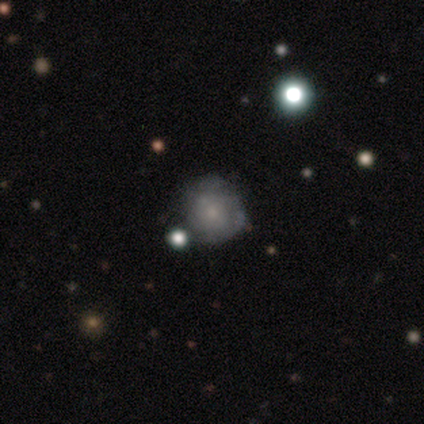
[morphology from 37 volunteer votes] Volunteers were most divided on "smooth or featured": smooth: 46%, featured or disk: 38%, star or artifact: 16%. More confident: how rounded — round (100%); merging — none (61%).